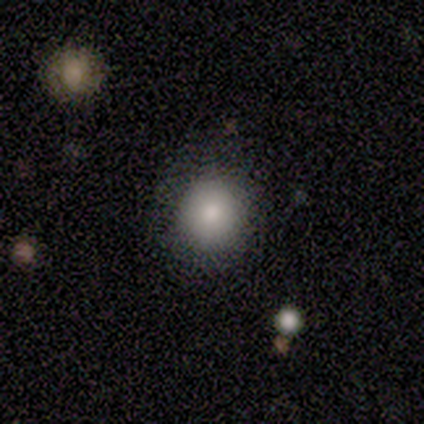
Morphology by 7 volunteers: type=smooth (100%); roundness=round (71%); merging=none (71%).